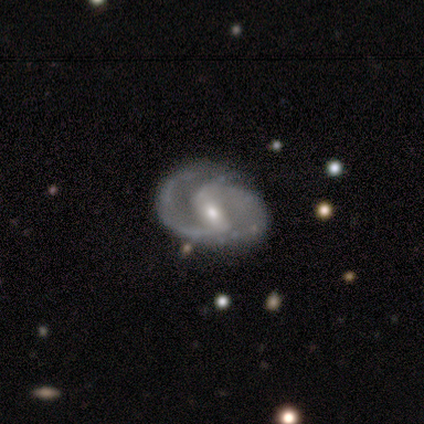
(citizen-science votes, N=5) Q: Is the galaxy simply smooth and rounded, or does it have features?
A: featured or disk — 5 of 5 (100%).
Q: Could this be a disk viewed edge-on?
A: no — 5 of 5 (100%).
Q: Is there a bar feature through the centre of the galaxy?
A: strong — 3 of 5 (60%).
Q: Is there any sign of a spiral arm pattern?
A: yes — 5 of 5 (100%).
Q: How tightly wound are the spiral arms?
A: medium — 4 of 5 (80%).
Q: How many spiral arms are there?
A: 2 — 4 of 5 (80%).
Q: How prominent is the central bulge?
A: small — 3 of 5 (60%).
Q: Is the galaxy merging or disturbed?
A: none — 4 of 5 (80%).